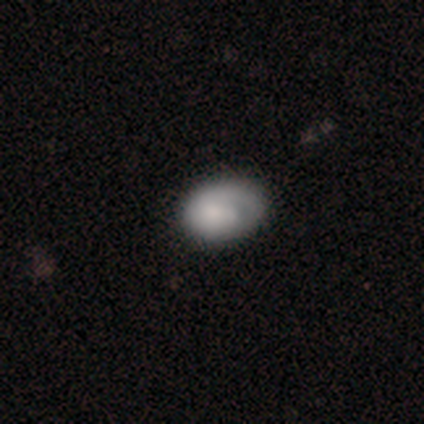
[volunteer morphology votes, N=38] Volunteers were most divided on "merging": none: 27%, minor disturbance: 22%, major disturbance: 3%, merger: 3%. More confident: smooth or featured — smooth (74%); how rounded — in between (68%).